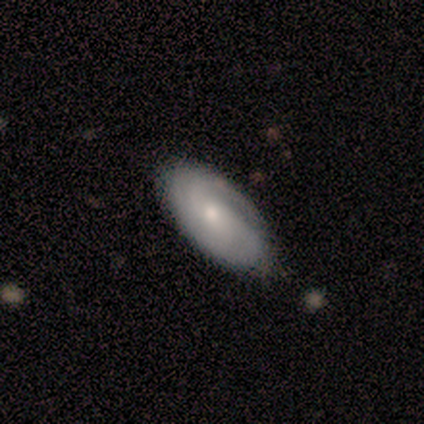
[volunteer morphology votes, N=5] This appears to be a smooth galaxy with no disk features (40%, tied with featured or disk) that is in between round and cigar-shaped (100%). Merging: none (25%, tied with minor disturbance, major disturbance and merger).